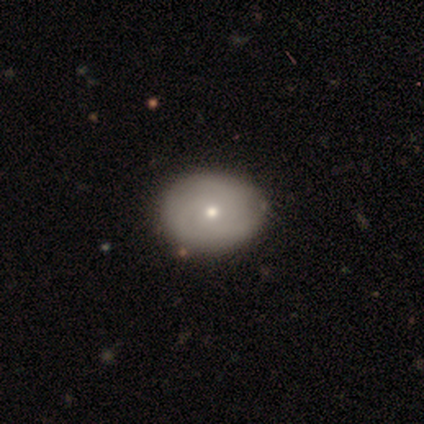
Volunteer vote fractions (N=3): smooth-or-featured: featured or disk: 67% | smooth: 33% | star or artifact: 0%
  disk-edge-on: no: 100% | yes: 0%
    bar: no: 100% | strong: 0% | weak: 0%
    has-spiral-arms: yes: 50% (tied) | no: 50% (tied)
      spiral-winding: tight: 100% | medium: 0% | loose: 0%
      spiral-arm-count: can't tell: 100% | 1: 0% | 2: 0% | 3: 0% | 4: 0% | more than 4: 0%
    bulge-size: moderate: 50% (tied) | small: 50% (tied) | dominant: 0% | large: 0% | none: 0%
  merging: none: 100% | minor disturbance: 0% | major disturbance: 0% | merger: 0%